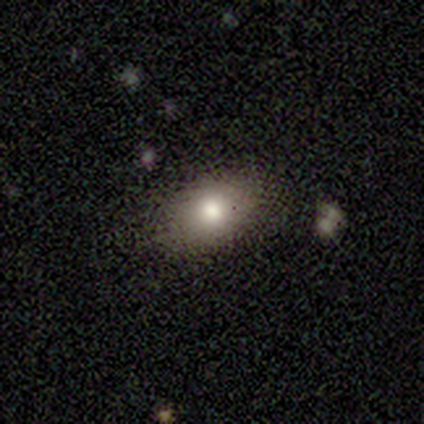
smooth 100%, featured or disk 0%, star or artifact 0%. Down the decision tree: how rounded — in between (60%); merging — minor disturbance (60%).